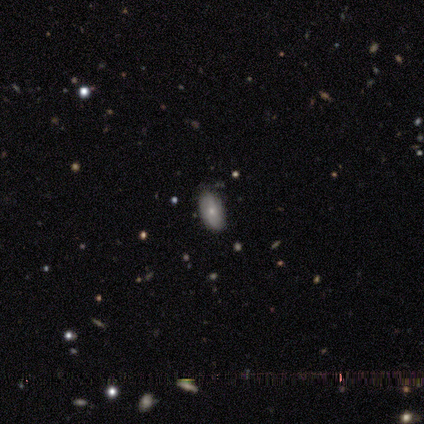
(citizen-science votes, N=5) Smooth or featured? smooth (80%)
How rounded? in between (100%)
Merging? none (75%)